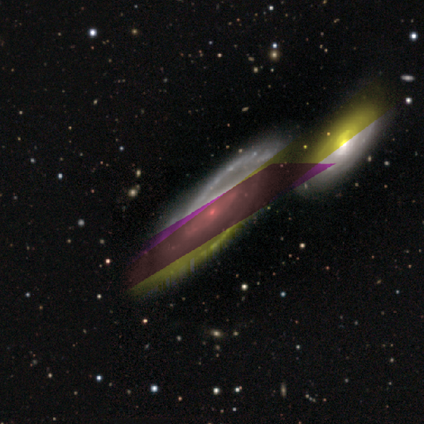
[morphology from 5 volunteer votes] type=featured or disk (80%); edge-on=no (75%); bar=no (67%); spiral arms=yes (100%); winding=medium (100%); arm count=can't tell (67%); bulge=small (100%); merging=none (100%).